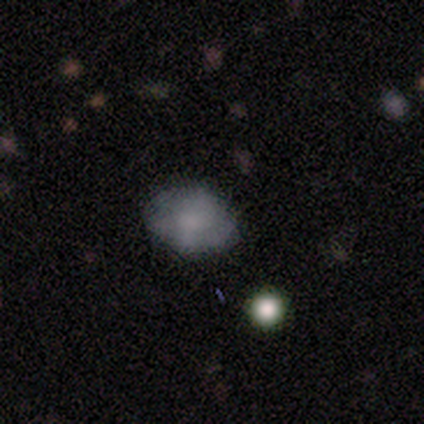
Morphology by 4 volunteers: Smooth or featured: smooth — 100%
How rounded: in between — 75% (round — 25%)
Merging: none — 75% (minor disturbance — 25%)